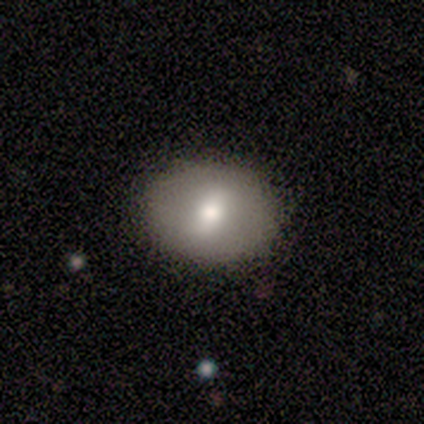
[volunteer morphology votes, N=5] type=smooth (80%); roundness=in between (75%); merging=none (100%).